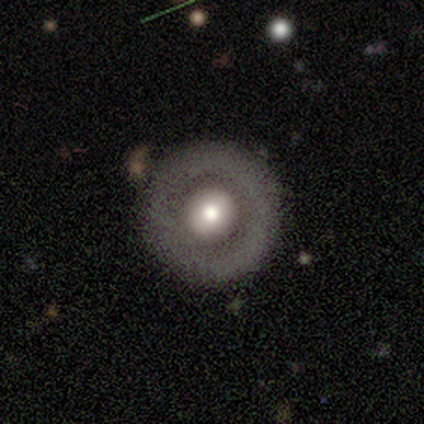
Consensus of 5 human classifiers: Smooth or featured?
  - smooth: 60% *
  - featured or disk: 40%
  - star or artifact: 0%
How rounded?
  - round: 100% *
  - in between: 0%
  - cigar-shaped: 0%
Merging?
  - none: 100% *
  - minor disturbance: 0%
  - major disturbance: 0%
  - merger: 0%